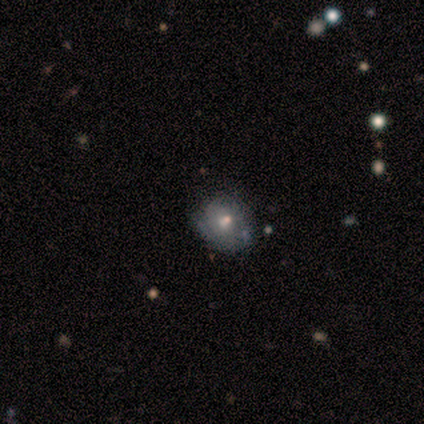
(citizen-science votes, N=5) smooth-or-featured: smooth: 40% (tied) | featured or disk: 40% (tied) | star or artifact: 20%
  how-rounded: round: 50% (tied) | in between: 50% (tied) | cigar-shaped: 0%
  merging: minor disturbance: 75% | none: 25% | major disturbance: 0% | merger: 0%